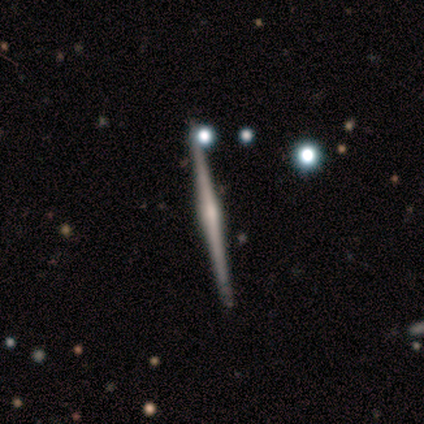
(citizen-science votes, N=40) Overall: featured or disk (90%). Edge-on disk: yes (100%). Edge-on bulge: rounded (72%). Merging: none (95%).